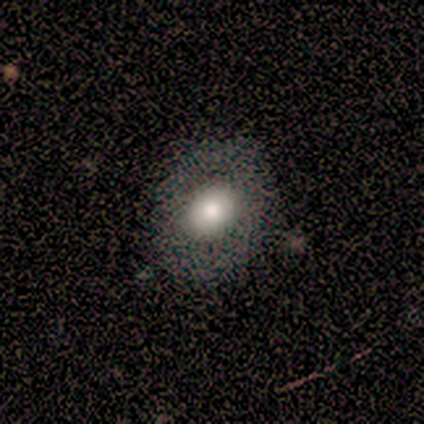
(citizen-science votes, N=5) smooth-or-featured: smooth: 100% | featured or disk: 0% | star or artifact: 0%
  how-rounded: round: 40% (tied) | in between: 40% (tied) | cigar-shaped: 20%
  merging: none: 100% | minor disturbance: 0% | major disturbance: 0% | merger: 0%